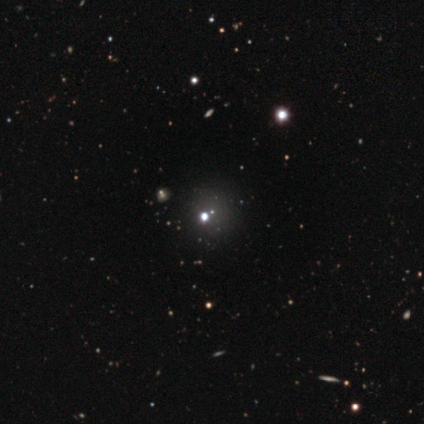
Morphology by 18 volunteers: This appears to be a star or artifact, not a galaxy (78%).